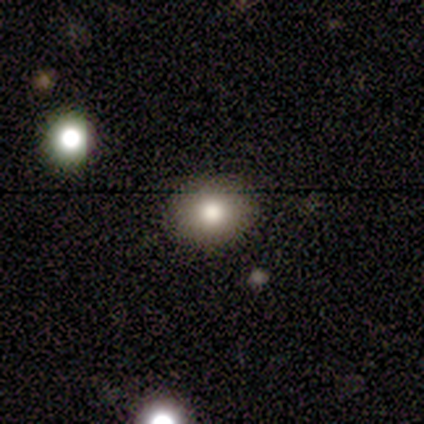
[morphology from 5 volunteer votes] Smooth or featured? 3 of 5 (60%) said smooth. How rounded? 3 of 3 (100%) said in between. Merging? 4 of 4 (100%) said none.